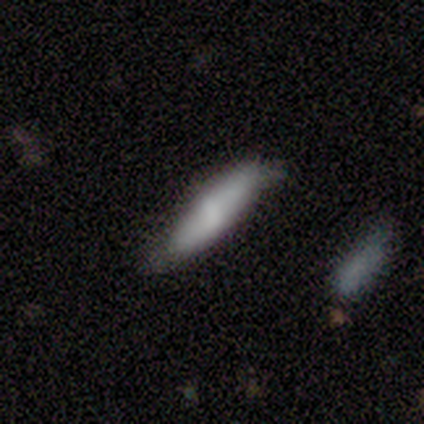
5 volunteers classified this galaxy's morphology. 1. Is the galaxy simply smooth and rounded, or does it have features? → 60% smooth, 40% featured or disk, 0% star or artifact.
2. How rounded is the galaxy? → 100% cigar-shaped, 0% round, 0% in between.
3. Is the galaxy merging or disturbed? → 60% none, 40% minor disturbance, 0% major disturbance, 0% merger.